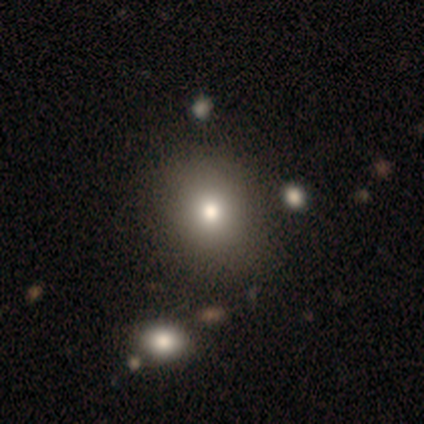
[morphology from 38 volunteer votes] Overall: smooth (84%). How rounded: round (66%; in between 31%). Merging: none (59%).